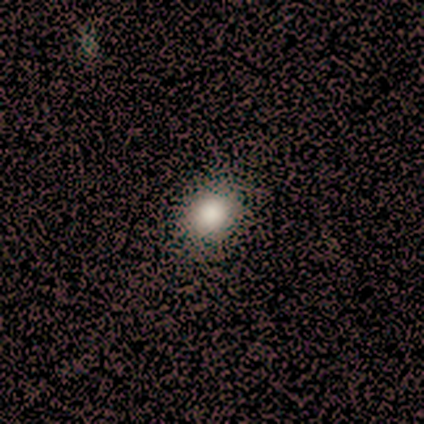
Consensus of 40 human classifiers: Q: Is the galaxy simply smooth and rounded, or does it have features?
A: smooth — 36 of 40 (90%).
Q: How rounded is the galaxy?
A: round — 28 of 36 (78%).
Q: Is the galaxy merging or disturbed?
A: none — 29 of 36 (81%).